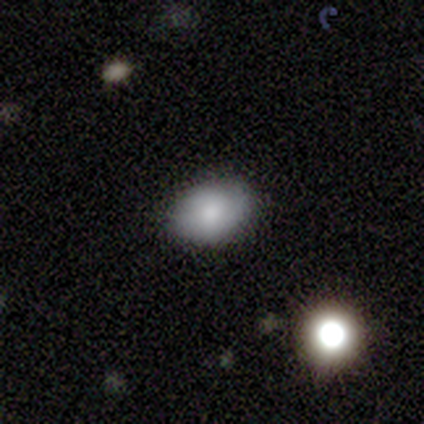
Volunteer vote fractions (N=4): Q: Smooth or featured?
A: smooth (75%); runner-up: featured or disk (25%)
Q: How rounded?
A: in between (67%); runner-up: round (33%)
Q: Merging?
A: none (100%)